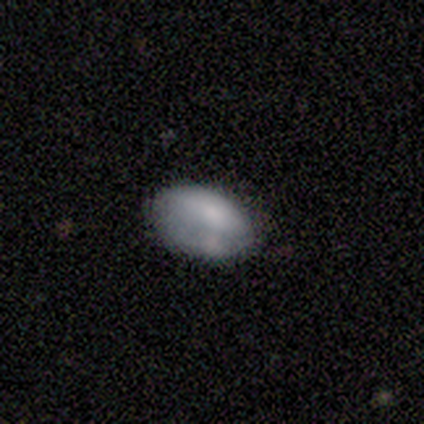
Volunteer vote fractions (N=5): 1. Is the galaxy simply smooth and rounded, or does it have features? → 100% smooth, 0% featured or disk, 0% star or artifact.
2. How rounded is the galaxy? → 100% in between, 0% round, 0% cigar-shaped.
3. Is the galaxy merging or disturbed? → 60% none, 40% merger, 0% minor disturbance, 0% major disturbance.